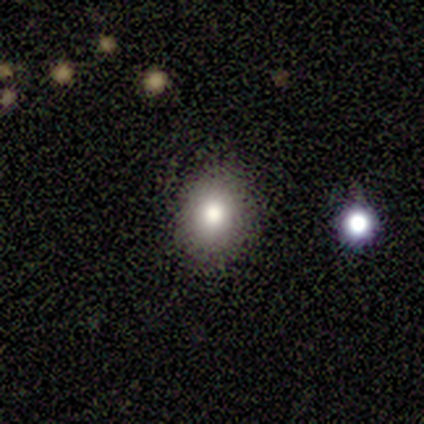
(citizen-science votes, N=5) Overall: smooth (100%). How rounded: in between (60%; round 40%). Merging: none (100%).